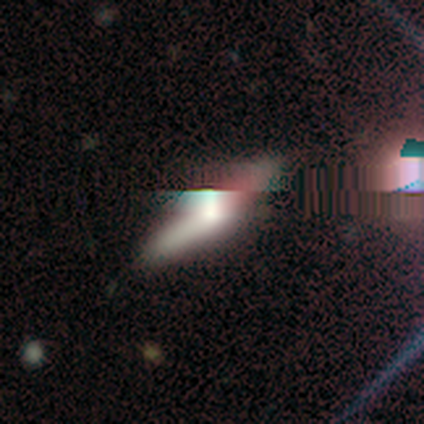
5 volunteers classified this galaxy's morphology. A smooth galaxy with no disk features (40%, tied with featured or disk) that is in between round and cigar-shaped (50%, tied with cigar-shaped). Merging: none (50%, tied with minor disturbance).